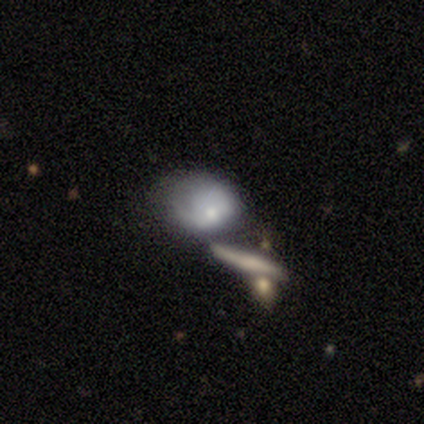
A smooth galaxy with no disk features (44%) that is in between round and cigar-shaped (65%).

Vote fractions:
- Smooth or featured? smooth: 44% / featured or disk: 41% / star or artifact: 15%
- How rounded? in between: 65% / round: 24% / cigar-shaped: 12%
- Merging? merger: 33% / minor disturbance: 24% / major disturbance: 24% / none: 18%